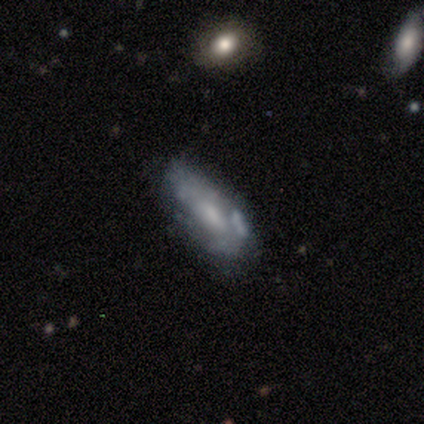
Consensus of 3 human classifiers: smooth_or_featured: featured or disk (p=0.67) [alt: smooth p=0.33]
disk_edge_on: no (p=1.00)
bar: weak (p=0.50) [tied with: no p=0.50]
has_spiral_arms: yes (p=0.50) [tied with: no p=0.50]
spiral_winding: medium (p=1.00)
spiral_arm_count: can't tell (p=1.00)
bulge_size: moderate (p=1.00)
merging: none (p=1.00)